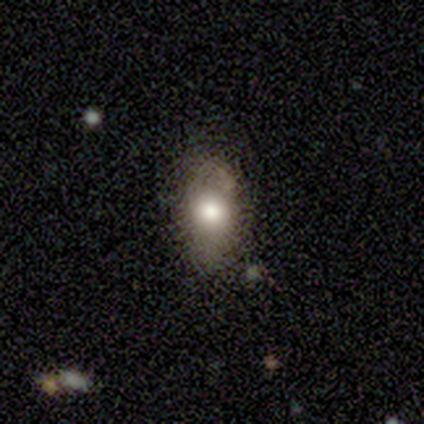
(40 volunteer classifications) Q: Smooth or featured?
A: smooth (68%); runner-up: featured or disk (20%)
Q: How rounded?
A: in between (96%); runner-up: round (4%)
Q: Merging?
A: none (57%); runner-up: minor disturbance (23%)